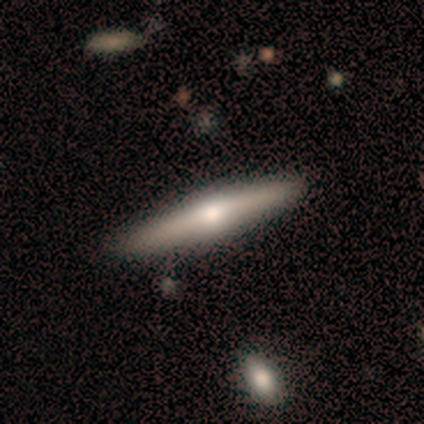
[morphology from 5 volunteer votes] Volunteers were most divided on "edge-on bulge": rounded: 75%, boxy: 25%, none: 0%. More confident: edge-on disk — yes (100%); smooth or featured — featured or disk (80%); merging — none (80%).